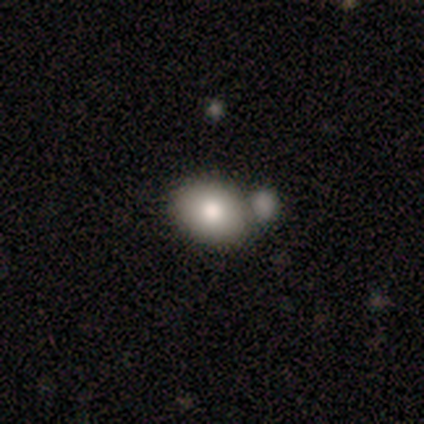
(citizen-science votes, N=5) This is clearly a smooth galaxy (80%). How rounded: possibly round (50%, tied with in between). Merging: likely none (75%).